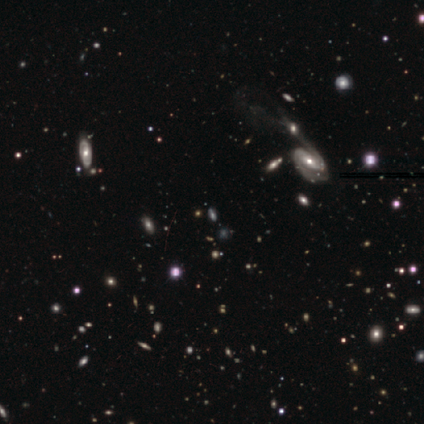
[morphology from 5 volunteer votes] smooth-or-featured: featured or disk: 60% | star or artifact: 40% | smooth: 0%
  disk-edge-on: no: 100% | yes: 0%
    bar: strong: 33% (tied) | weak: 33% (tied) | no: 33% (tied)
    has-spiral-arms: yes: 100% | no: 0%
      spiral-winding: medium: 100% | tight: 0% | loose: 0%
      spiral-arm-count: 2: 100% | 1: 0% | 3: 0% | 4: 0% | more than 4: 0% | can't tell: 0%
    bulge-size: moderate: 67% | none: 33% | dominant: 0% | large: 0% | small: 0%
  merging: merger: 67% | major disturbance: 33% | none: 0% | minor disturbance: 0%